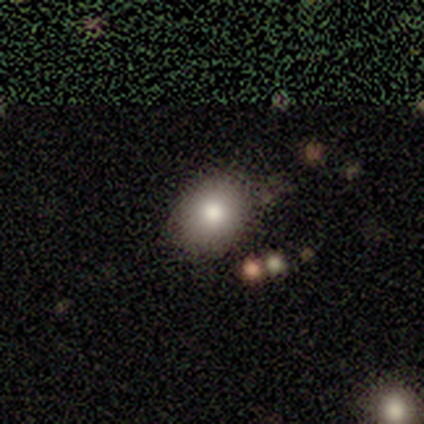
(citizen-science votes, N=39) Morphology: type=smooth (79%); roundness=in between (55%); merging=none (62%).